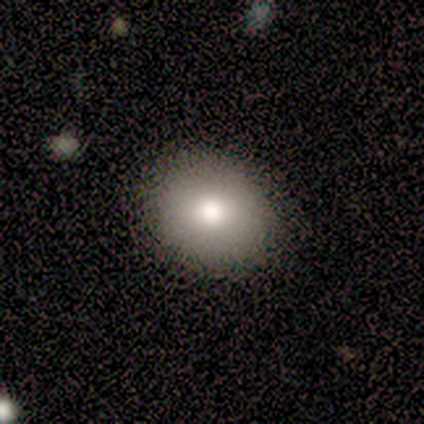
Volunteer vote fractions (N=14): Q: Smooth or featured?
A: smooth (100%)
Q: How rounded?
A: round (71%); runner-up: in between (29%)
Q: Merging?
A: none (93%); runner-up: minor disturbance (7%)